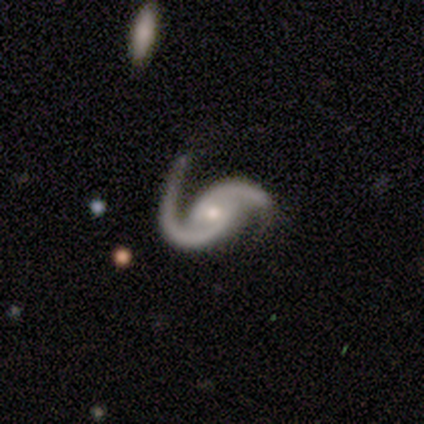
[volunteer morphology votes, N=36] Smooth or featured? featured or disk (100%)
Edge-on disk? no (97%)
Bar? weak (46%)
Spiral arms? yes (97%)
Spiral winding? loose (53%)
Spiral arm count? 2 (97%)
Bulge size? small (54%)
Merging? none (58%)